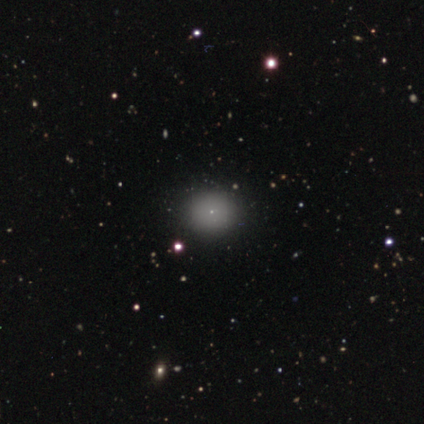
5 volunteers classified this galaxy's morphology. Smooth or featured? smooth (80%)
How rounded? round (100%)
Merging? none (100%)